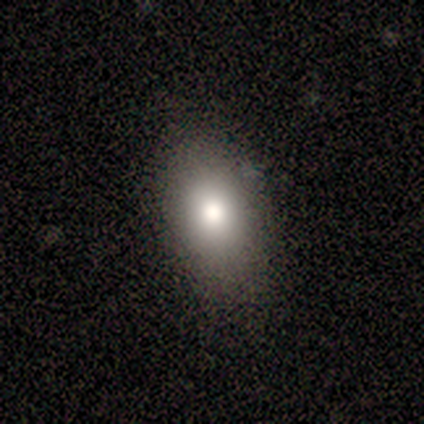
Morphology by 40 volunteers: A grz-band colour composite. It shows a smooth galaxy with no disk features (85%) that is in between round and cigar-shaped (85%). Merging: none (82%).